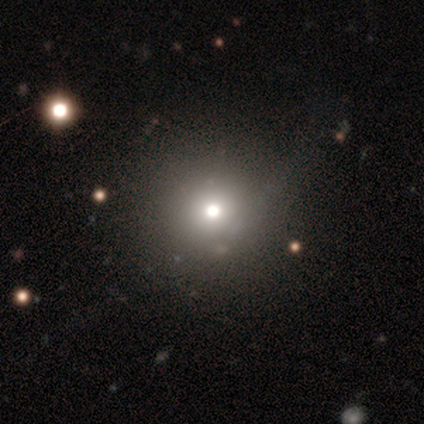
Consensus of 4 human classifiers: smooth_or_featured: smooth (p=1.00)
how_rounded: round (p=1.00)
merging: none (p=0.50) [alt: minor disturbance p=0.25]